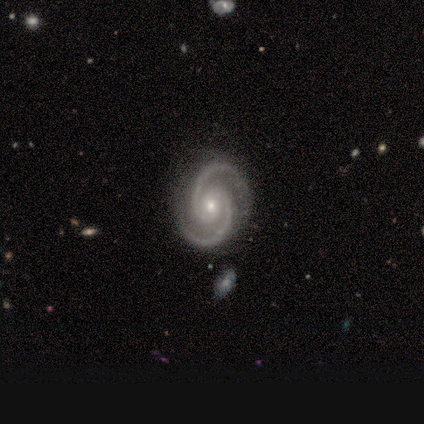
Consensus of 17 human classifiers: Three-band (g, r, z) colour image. It shows a featured or disk galaxy (88%) with no bar (80%), 2 (100%) medium (60%) spiral arms (100%) and a small central bulge (60%). Merging: none (100%).